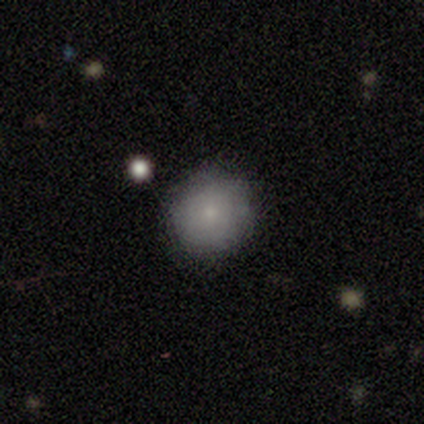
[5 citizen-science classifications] smooth_or_featured: smooth (p=0.80) [alt: featured or disk p=0.20]
how_rounded: round (p=1.00)
merging: none (p=1.00)